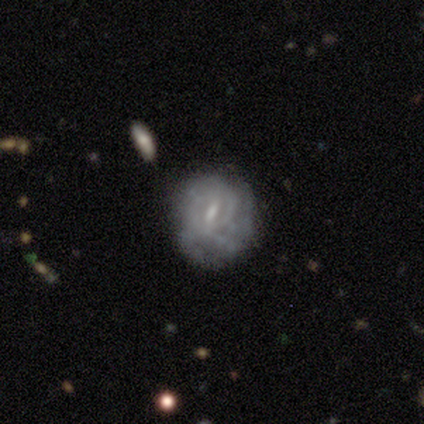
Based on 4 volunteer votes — Smooth or featured: featured or disk — 75% (smooth — 25%)
Edge-on disk: no — 100%
Bar: no — 67% (weak — 33%)
Spiral arms: no — 67% (yes — 33%)
Bulge size: small — 67% (none — 33%)
Merging: none — 100%